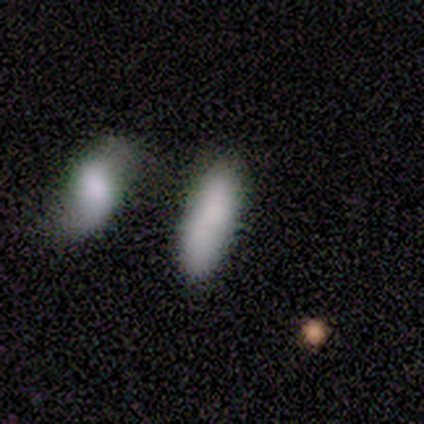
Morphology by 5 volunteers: Smooth or featured? 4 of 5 (80%) said smooth. How rounded? 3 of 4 (75%) said in between. Merging? 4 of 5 (80%) said none.